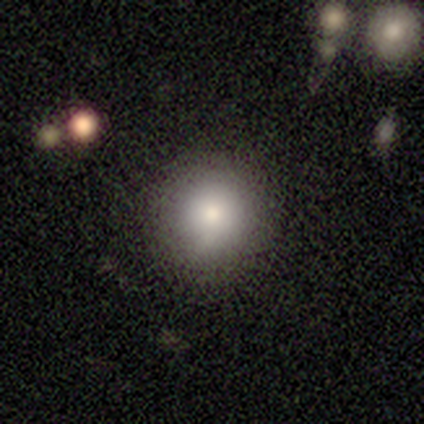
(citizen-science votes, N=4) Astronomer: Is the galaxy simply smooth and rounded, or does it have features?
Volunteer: smooth — 75%.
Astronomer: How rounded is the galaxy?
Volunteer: round — 100%.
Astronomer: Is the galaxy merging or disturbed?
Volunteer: none — 100%.